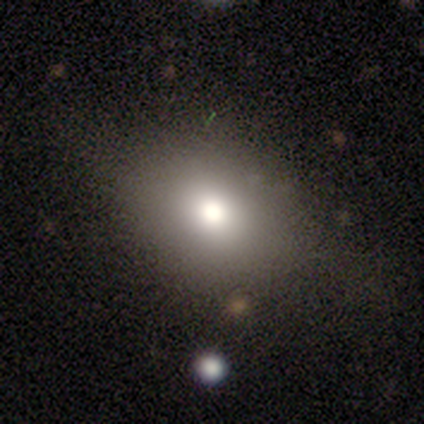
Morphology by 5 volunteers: Volunteers were most divided on "how rounded" (2-way tie): round: 50%, in between: 50%, cigar-shaped: 0%. More confident: smooth or featured — smooth (80%); merging — none (75%).